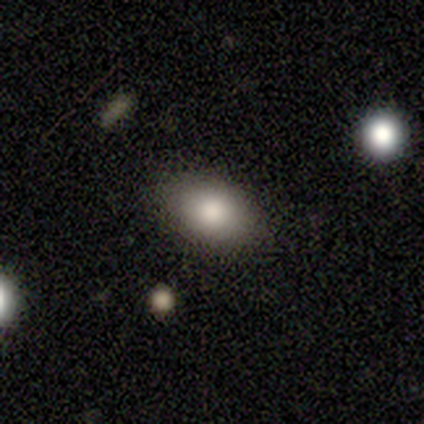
star or artifact 60%, smooth 40%, featured or disk 0%.